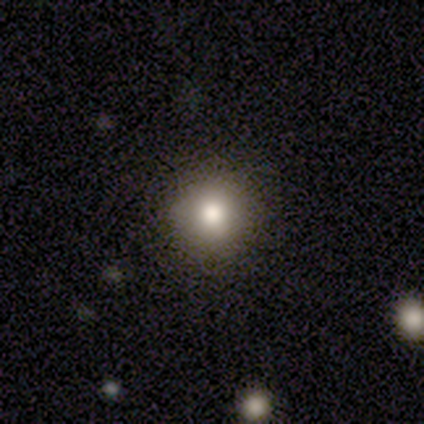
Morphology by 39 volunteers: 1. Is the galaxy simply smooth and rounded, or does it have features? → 77% smooth, 13% featured or disk, 10% star or artifact.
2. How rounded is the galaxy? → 97% round, 3% in between, 0% cigar-shaped.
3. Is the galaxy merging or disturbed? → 94% none, 6% minor disturbance, 0% major disturbance, 0% merger.